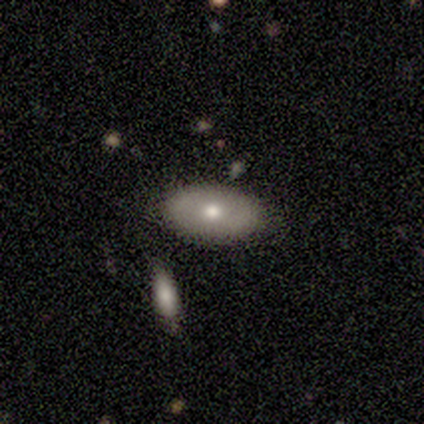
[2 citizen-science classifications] A smooth galaxy with no disk features (50%, tied with featured or disk) that is in between round and cigar-shaped (100%).

Vote fractions:
- Smooth or featured? smooth: 50% (tied) / featured or disk: 50% (tied) / star or artifact: 0%
- How rounded? in between: 100% / round: 0% / cigar-shaped: 0%
- Merging? minor disturbance: 50% (tied) / merger: 50% (tied) / none: 0% / major disturbance: 0%